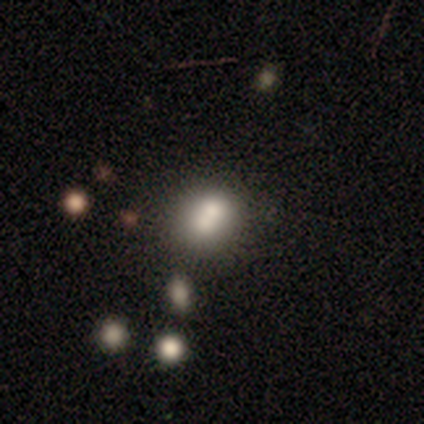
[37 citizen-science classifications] This appears to be a smooth galaxy with no disk features (84%) that is round (68%). Merging: none (43%, tied with merger).